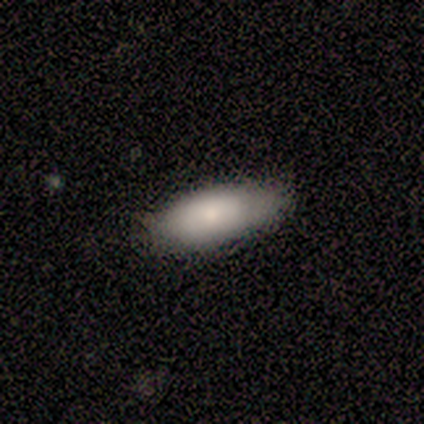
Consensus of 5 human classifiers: Smooth or featured: smooth — 80% (featured or disk — 20%)
How rounded: in between — 100%
Merging: none — 100%